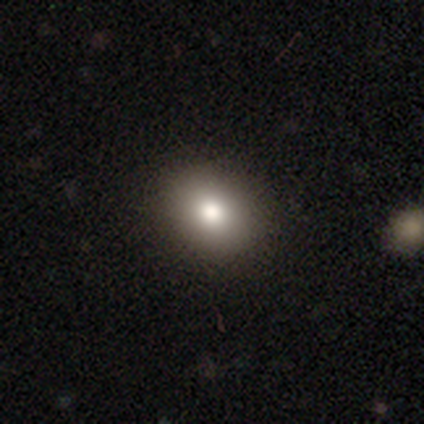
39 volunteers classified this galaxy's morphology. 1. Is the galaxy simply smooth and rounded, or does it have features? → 87% smooth, 8% featured or disk, 5% star or artifact.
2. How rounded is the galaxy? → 65% in between, 35% round, 0% cigar-shaped.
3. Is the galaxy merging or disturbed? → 89% none, 11% minor disturbance, 0% major disturbance, 0% merger.